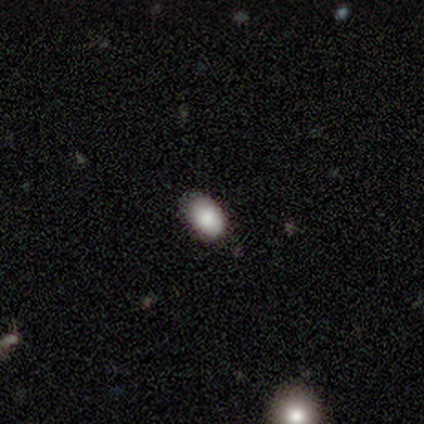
smooth-or-featured: smooth: 80% | featured or disk: 20% | star or artifact: 0%
  how-rounded: in between: 100% | round: 0% | cigar-shaped: 0%
  merging: none: 80% | minor disturbance: 20% | major disturbance: 0% | merger: 0%